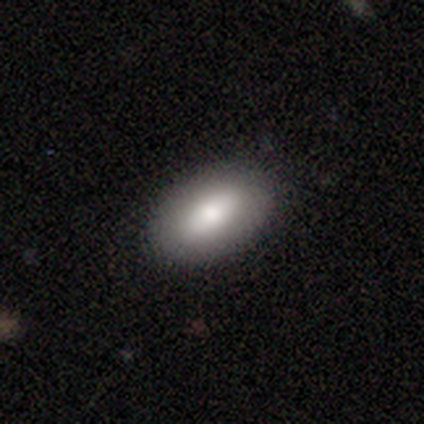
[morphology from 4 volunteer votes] smooth-or-featured: smooth: 50% (tied) | featured or disk: 50% (tied) | star or artifact: 0%
  how-rounded: in between: 100% | round: 0% | cigar-shaped: 0%
  merging: none: 100% | minor disturbance: 0% | major disturbance: 0% | merger: 0%